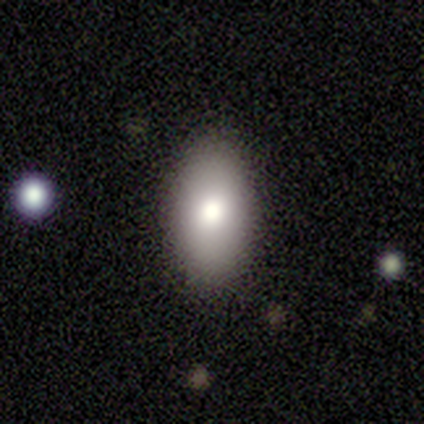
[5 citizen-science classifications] Q: Smooth or featured?
A: smooth (60%); runner-up: featured or disk (20%)
Q: How rounded?
A: in between (100%)
Q: Merging?
A: none (100%)